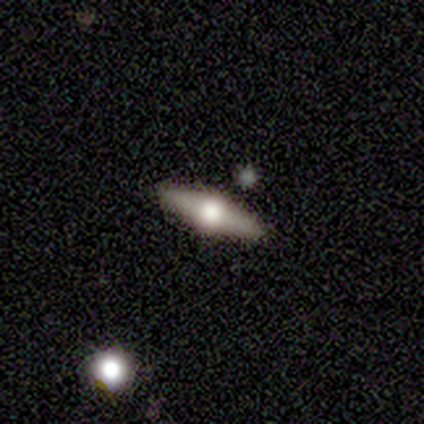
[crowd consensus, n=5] A featured or disk galaxy (80%) viewed edge-on (100%) with a rounded central bulge (100%).

Vote fractions:
- Smooth or featured? featured or disk: 80% / smooth: 20% / star or artifact: 0%
- Edge-on disk? yes: 100% / no: 0%
- Edge-on bulge? rounded: 100% / boxy: 0% / none: 0%
- Merging? none: 100% / minor disturbance: 0% / major disturbance: 0% / merger: 0%